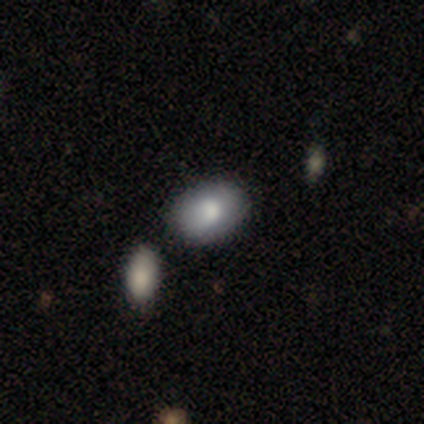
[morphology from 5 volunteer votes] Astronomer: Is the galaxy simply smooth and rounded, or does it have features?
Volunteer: smooth — 60% (runner-up: featured or disk, 40%).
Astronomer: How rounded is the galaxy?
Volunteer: in between — 100%.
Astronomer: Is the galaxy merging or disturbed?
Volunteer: none — 60% (runner-up: minor disturbance, 40%).